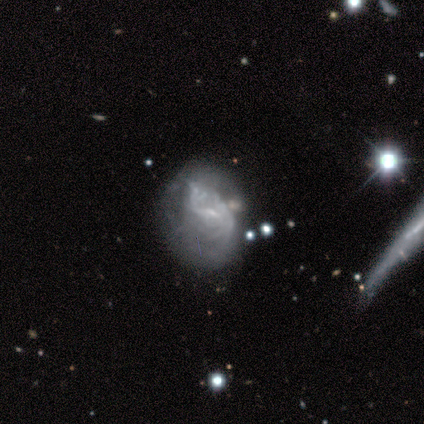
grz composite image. It shows a featured or disk galaxy (78%) with a weak bar (52%), tight (53%) spiral arms (52%) and a small central bulge (67%). Merging: none (33%).